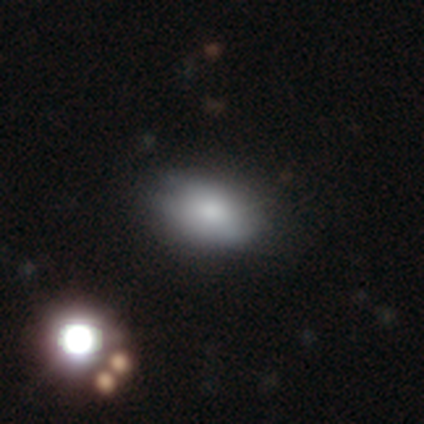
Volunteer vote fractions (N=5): Q: Smooth or featured?
A: smooth (80%); runner-up: star or artifact (20%)
Q: How rounded?
A: round (50%); tied with: in between (50%)
Q: Merging?
A: none (100%)